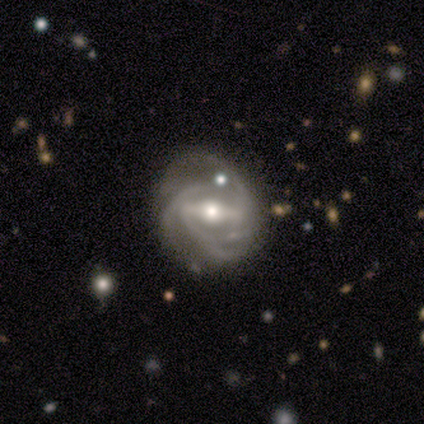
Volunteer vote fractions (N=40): Volunteers were most divided on "spiral winding": tight: 47%, medium: 42%, loose: 11%. Remaining: edge-on disk — no (100%); spiral arms — yes (97%); smooth or featured — featured or disk (92%); bar — strong (78%); bulge size — moderate (68%); spiral arm count — 3 (44%); merging — none (29%).